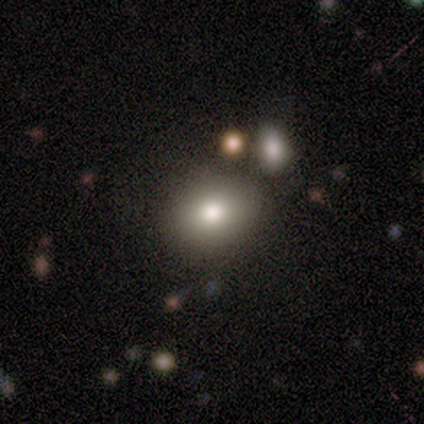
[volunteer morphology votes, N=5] Smooth or featured: smooth — 100%
How rounded: round — 60% (in between — 40%)
Merging: none — 100%